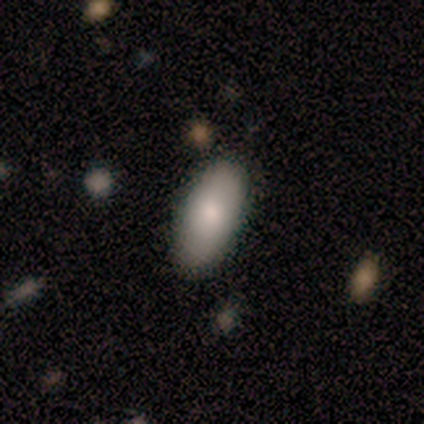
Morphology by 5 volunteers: Smooth or featured? smooth (100%)
How rounded? in between (80%)
Merging? none (100%)